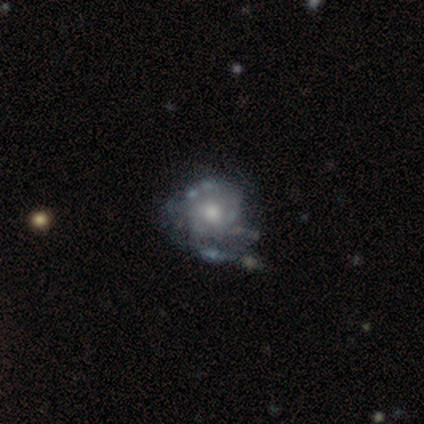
Smooth or featured: featured or disk — 100%
Edge-on disk: no — 100%
Bar: no — 100%
Spiral arms: no — 60% (yes — 40%)
Bulge size: moderate — 100%
Merging: minor disturbance — 60% (none — 40%)